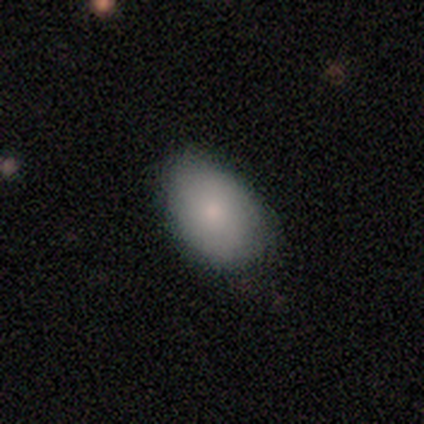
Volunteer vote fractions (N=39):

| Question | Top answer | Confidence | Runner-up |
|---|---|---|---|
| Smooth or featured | smooth | 72% | featured or disk (18%) |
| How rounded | in between | 93% | round (7%) |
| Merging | none | 51% | minor disturbance (46%) |